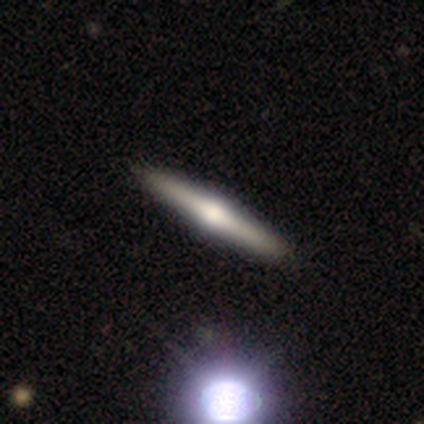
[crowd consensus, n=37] A featured or disk galaxy (76%) viewed edge-on (96%) with a rounded central bulge (100%).

Vote fractions:
- Smooth or featured? featured or disk: 76% / smooth: 22% / star or artifact: 3%
- Edge-on disk? yes: 96% / no: 4%
- Edge-on bulge? rounded: 100% / boxy: 0% / none: 0%
- Merging? none: 72% / minor disturbance: 0% / major disturbance: 0% / merger: 0%